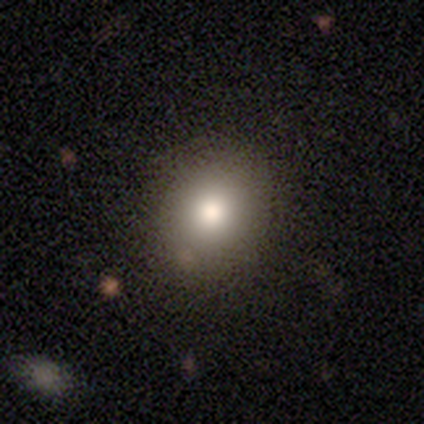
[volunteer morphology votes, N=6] A smooth galaxy with no disk features (67%) that is round (75%).

Vote fractions:
- Smooth or featured? smooth: 67% / featured or disk: 17% / star or artifact: 17%
- How rounded? round: 75% / in between: 25% / cigar-shaped: 0%
- Merging? none: 100% / minor disturbance: 0% / major disturbance: 0% / merger: 0%